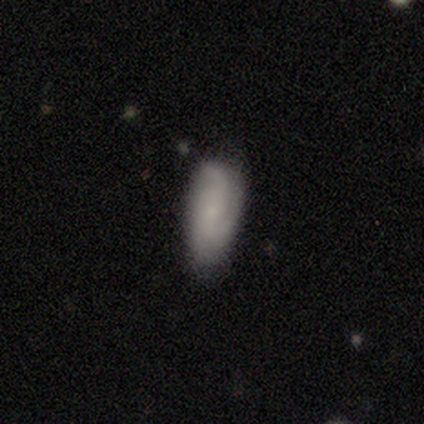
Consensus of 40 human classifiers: Smooth or featured? smooth (60%)
How rounded? in between (71%)
Merging? none (61%)